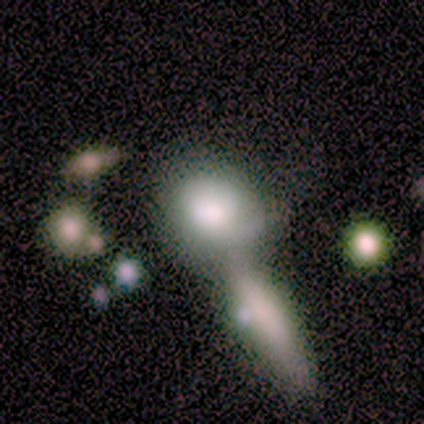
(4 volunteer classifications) smooth_or_featured: smooth (p=0.75) [alt: featured or disk p=0.25]
how_rounded: round (p=0.67) [alt: in between p=0.33]
merging: merger (p=1.00)